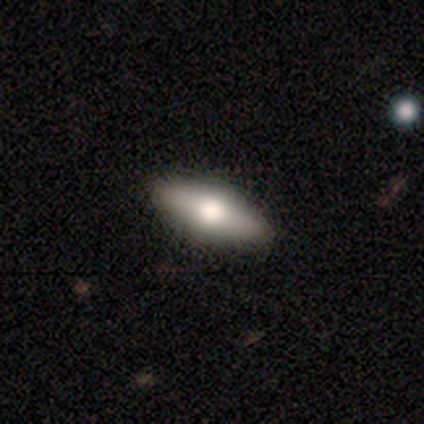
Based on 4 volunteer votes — Overall: featured or disk (50%; smooth 25%). Edge-on disk: yes (100%). Edge-on bulge: rounded (100%). Merging: none (100%).